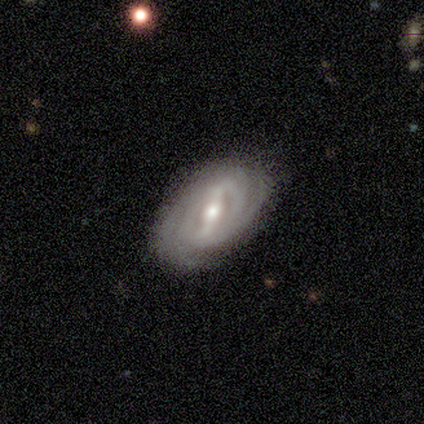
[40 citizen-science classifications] This appears to be a featured or disk galaxy (78%) with a strong bar (59%), 2 (56%) tight (74%) spiral arms (100%) and a moderate central bulge (67%). Merging: none (74%).